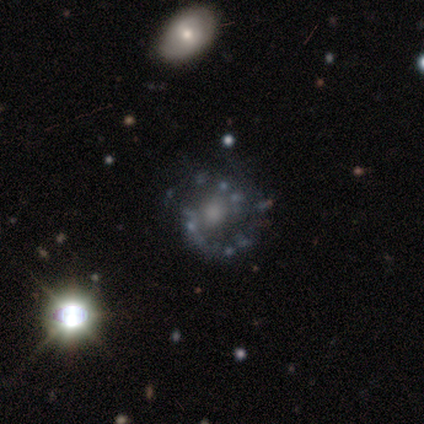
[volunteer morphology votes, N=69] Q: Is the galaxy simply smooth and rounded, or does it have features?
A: featured or disk — 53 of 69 (77%).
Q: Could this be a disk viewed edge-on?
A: no — 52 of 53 (98%).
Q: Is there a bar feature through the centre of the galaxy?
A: no — 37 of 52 (71%).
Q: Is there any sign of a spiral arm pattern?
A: yes — 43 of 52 (83%).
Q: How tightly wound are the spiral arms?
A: medium — 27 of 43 (63%).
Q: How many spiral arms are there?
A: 2 — 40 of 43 (93%).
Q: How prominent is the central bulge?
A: moderate — 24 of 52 (46%).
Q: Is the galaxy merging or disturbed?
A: none — 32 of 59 (54%).